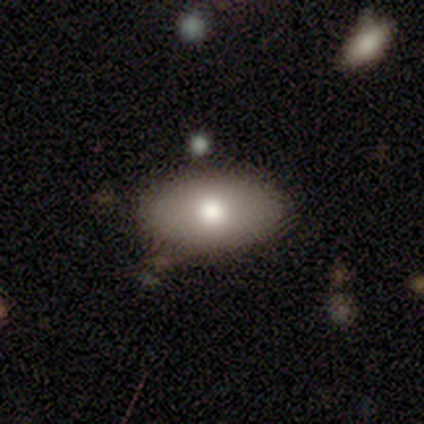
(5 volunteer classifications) Volunteers were most divided on "how rounded": in between: 75%, cigar-shaped: 25%, round: 0%. More confident: smooth or featured — smooth (80%); merging — none (80%).